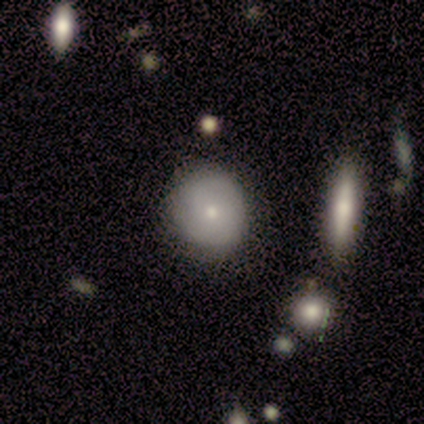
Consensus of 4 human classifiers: Smooth or featured? 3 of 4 (75%) said featured or disk. Edge-on disk? 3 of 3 (100%) said no. Bar? 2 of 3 (67%) said no. Spiral arms? 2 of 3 (67%) said no. Bulge size? 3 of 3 (100%) said small. Merging? 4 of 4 (100%) said none.